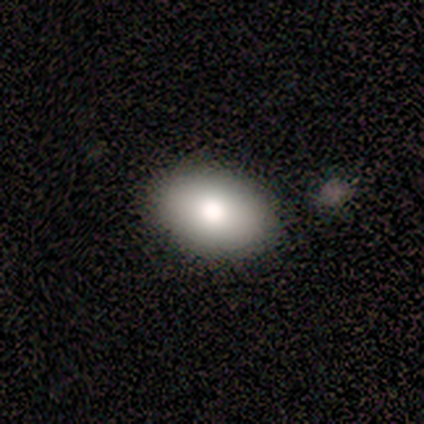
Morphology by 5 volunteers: Overall: smooth (80%). How rounded: in between (75%). Merging: none (100%).